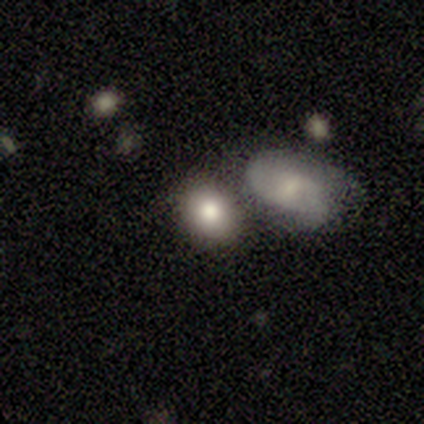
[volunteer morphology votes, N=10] A smooth galaxy with no disk features (90%) that is in between round and cigar-shaped (89%).

Vote fractions:
- Smooth or featured? smooth: 90% / featured or disk: 10% / star or artifact: 0%
- How rounded? in between: 89% / round: 11% / cigar-shaped: 0%
- Merging? none: 80% / minor disturbance: 10% / merger: 10% / major disturbance: 0%